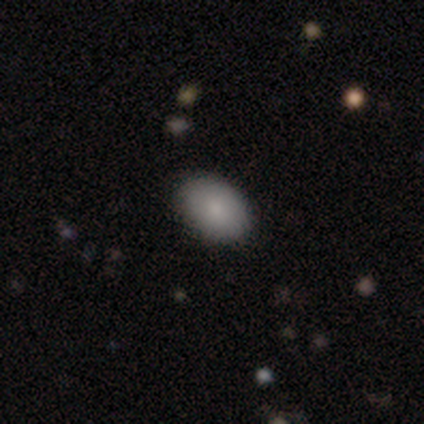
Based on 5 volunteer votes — Smooth or featured? smooth (100%)
How rounded? in between (100%)
Merging? none (80%)